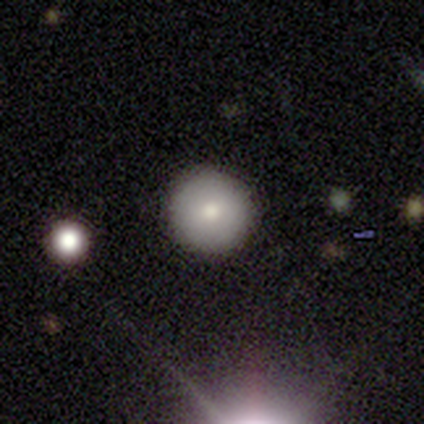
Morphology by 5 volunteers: A smooth galaxy with no disk features (80%) that is round (100%). Merging: none (100%).